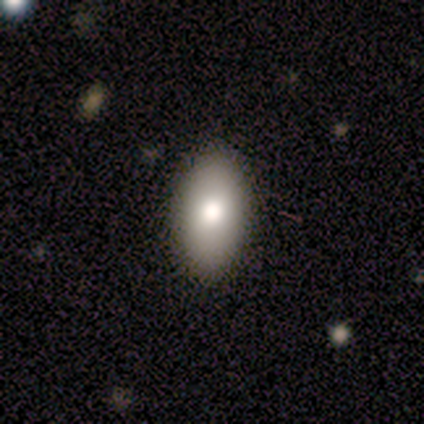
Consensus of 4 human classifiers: Q: Smooth or featured?
A: smooth (100%)
Q: How rounded?
A: cigar-shaped (50%); runner-up: round (25%)
Q: Merging?
A: none (75%); runner-up: merger (25%)